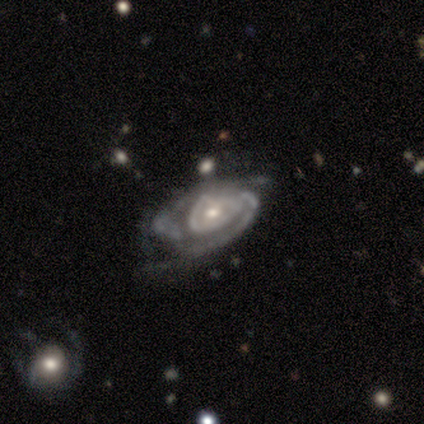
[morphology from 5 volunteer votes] featured or disk 100%, smooth 0%, star or artifact 0%. Down the decision tree: edge-on disk — no (100%); bar — no (60%); spiral arms — yes (100%); spiral arm count — 2 (40%); spiral winding — tight (80%); bulge size — small (60%); merging — none (80%).